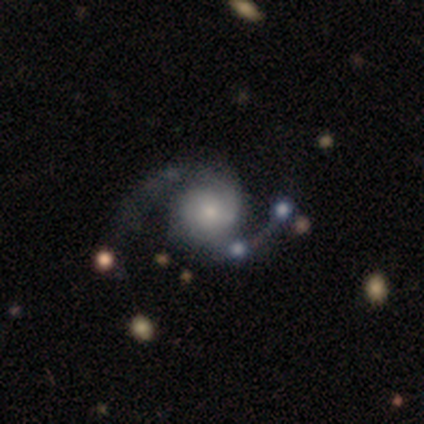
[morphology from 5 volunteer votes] smooth-or-featured: featured or disk: 100% | smooth: 0% | star or artifact: 0%
  disk-edge-on: no: 100% | yes: 0%
    bar: no: 80% | weak: 20% | strong: 0%
    has-spiral-arms: yes: 100% | no: 0%
      spiral-winding: loose: 80% | medium: 20% | tight: 0%
      spiral-arm-count: 2: 100% | 1: 0% | 3: 0% | 4: 0% | more than 4: 0% | can't tell: 0%
    bulge-size: dominant: 20% (tied) | large: 20% (tied) | moderate: 20% (tied) | small: 20% (tied) | none: 20% (tied)
  merging: none: 80% | minor disturbance: 20% | major disturbance: 0% | merger: 0%